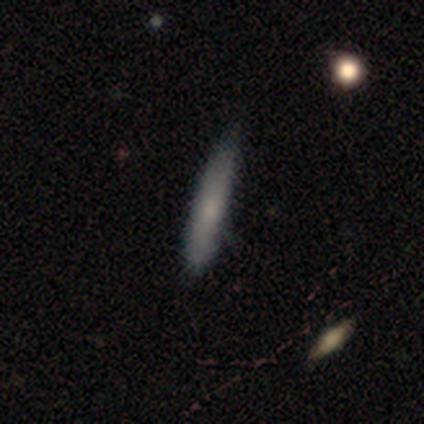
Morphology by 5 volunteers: smooth-or-featured: smooth: 80% | featured or disk: 20% | star or artifact: 0%
  how-rounded: cigar-shaped: 100% | round: 0% | in between: 0%
  merging: none: 80% | minor disturbance: 20% | major disturbance: 0% | merger: 0%